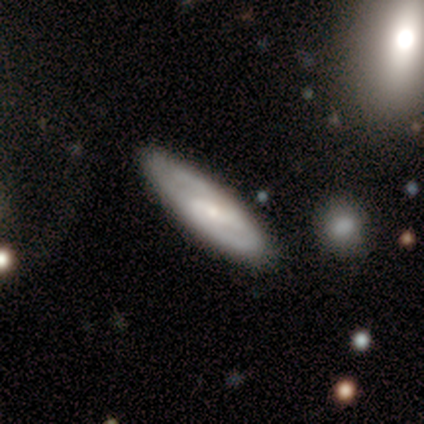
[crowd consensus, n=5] Smooth or featured: featured or disk — 60% (smooth — 40%)
Edge-on disk: no — 100%
Bar: weak — 67% (no — 33%)
Spiral arms: yes — 100%
Spiral winding: tight — 100%
Spiral arm count: can't tell — 67% (2 — 33%)
Bulge size: small — 100%
Merging: none — 100%